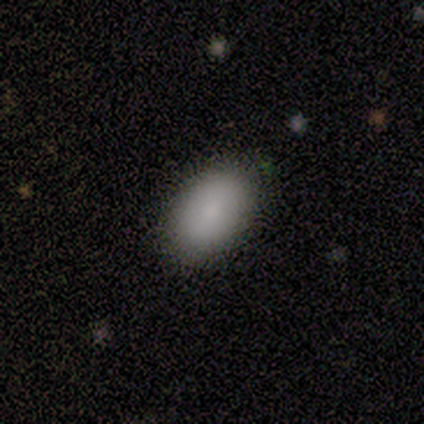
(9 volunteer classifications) This appears to be a smooth galaxy with no disk features (89%) that is in between round and cigar-shaped (100%). Merging: none (89%).